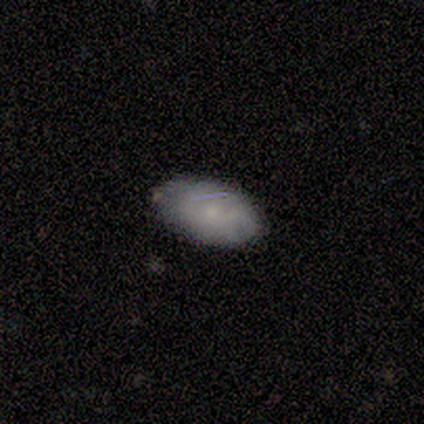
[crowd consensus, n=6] smooth 67%, featured or disk 33%, star or artifact 0%. Down the decision tree: how rounded — in between (100%); merging — none (83%).